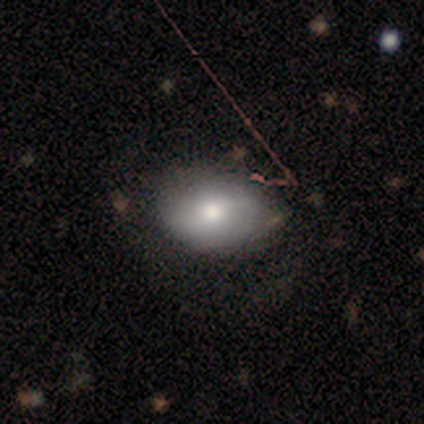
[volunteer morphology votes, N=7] This appears to be a smooth galaxy with no disk features (86%) that is in between round and cigar-shaped (67%). Merging: none (71%).